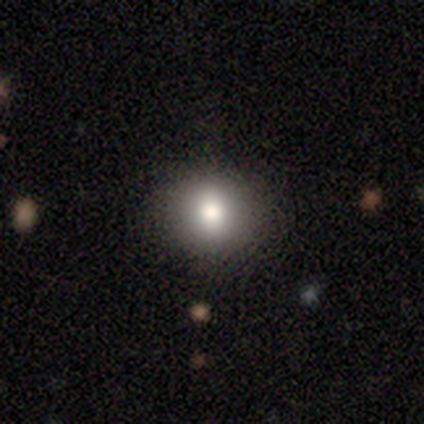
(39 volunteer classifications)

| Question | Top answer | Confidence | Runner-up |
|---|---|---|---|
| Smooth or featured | smooth | 77% | star or artifact (13%) |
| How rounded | round | 67% | in between (33%) |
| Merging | none | 94% | minor disturbance (3%) |